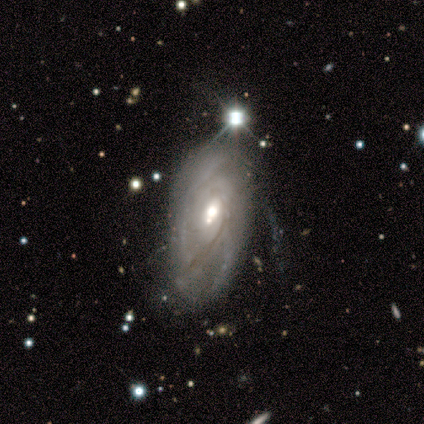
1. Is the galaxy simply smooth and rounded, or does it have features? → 88% featured or disk, 10% smooth, 2% star or artifact.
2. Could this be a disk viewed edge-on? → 91% no, 9% yes.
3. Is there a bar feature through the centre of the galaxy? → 82% no, 18% weak, 0% strong.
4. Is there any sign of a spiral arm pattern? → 88% yes, 12% no.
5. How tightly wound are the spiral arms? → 74% tight, 20% medium, 6% loose.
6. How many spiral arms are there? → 51% can't tell, 26% 2, 11% 3, 9% 4, 3% more than 4, 0% 1.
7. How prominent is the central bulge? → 68% moderate, 20% large, 8% small, 5% dominant, 0% none.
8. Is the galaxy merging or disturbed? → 41% none, 33% minor disturbance, 24% major disturbance, 2% merger.